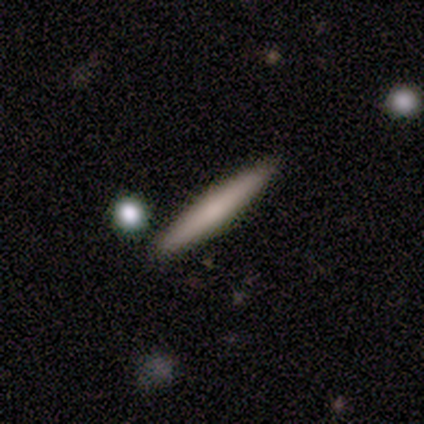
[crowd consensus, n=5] Morphology: type=smooth (100%); roundness=cigar-shaped (100%); merging=none (100%).